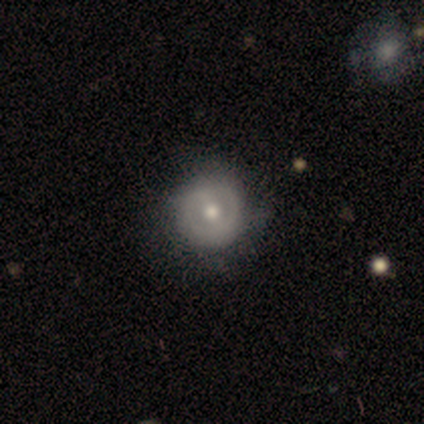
This is possibly a featured or disk galaxy (52%). It is clearly not viewed edge-on (95%). Bar: likely weak (65%). Spiral arm pattern: likely no (60%). Central bulge: clearly moderate (80%). Merging: possibly none (50%).